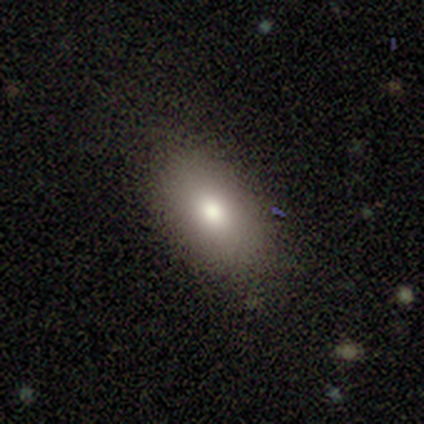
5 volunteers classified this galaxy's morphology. A smooth galaxy with no disk features (40%, tied with featured or disk) that is in between round and cigar-shaped (100%). Merging: none (75%).